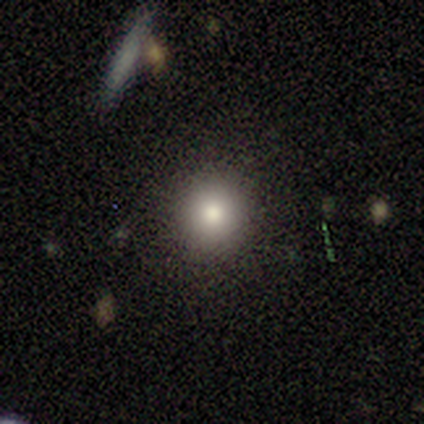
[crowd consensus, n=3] A smooth galaxy with no disk features (100%) that is round (100%). Merging: none (100%).